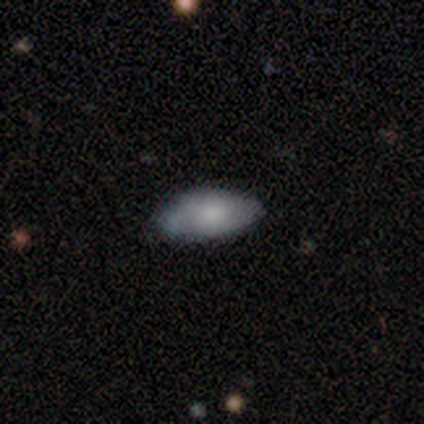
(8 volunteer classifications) This appears to be a smooth galaxy with no disk features (62%) that is in between round and cigar-shaped (100%). Merging: none (88%).